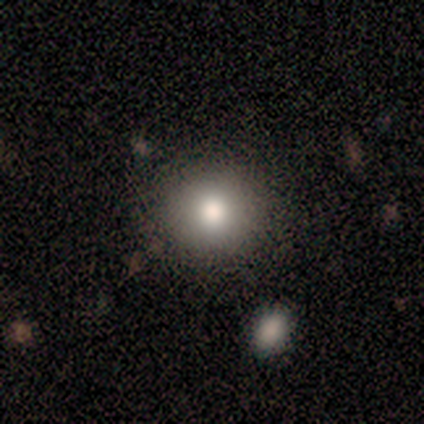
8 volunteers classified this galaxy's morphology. type=smooth (50%); roundness=round (100%); merging=none (100%).